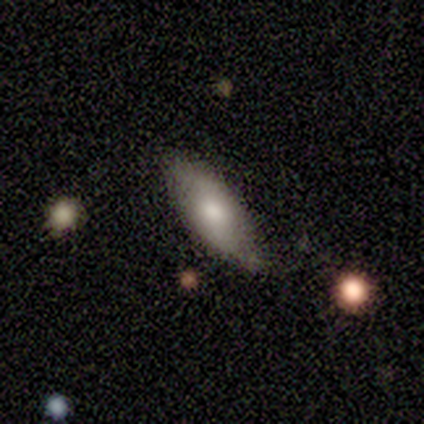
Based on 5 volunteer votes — A featured or disk galaxy (60%) with no bar (100%), 2 (100%) loose (100%) spiral arms (100%) and a dominant central bulge (50%, tied with moderate).

Vote fractions:
- Smooth or featured? featured or disk: 60% / smooth: 40% / star or artifact: 0%
- Edge-on disk? no: 67% / yes: 33%
- Bar? no: 100% / strong: 0% / weak: 0%
- Spiral arms? yes: 100% / no: 0%
- Spiral winding? loose: 100% / tight: 0% / medium: 0%
- Spiral arm count? 2: 100% / 1: 0% / 3: 0% / 4: 0% / more than 4: 0% / can't tell: 0%
- Bulge size? dominant: 50% (tied) / moderate: 50% (tied) / large: 0% / small: 0% / none: 0%
- Merging? minor disturbance: 60% / none: 40% / major disturbance: 0% / merger: 0%